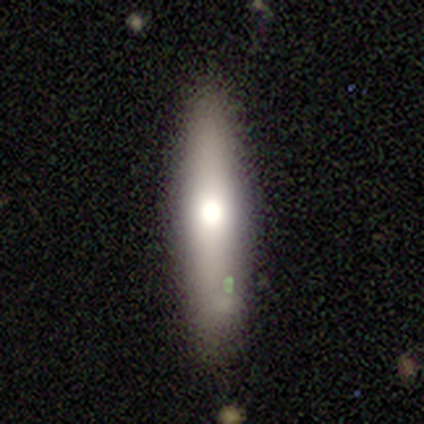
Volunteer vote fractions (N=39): Smooth or featured?
  - smooth: 49% *
  - featured or disk: 44%
  - star or artifact: 8%
How rounded?
  - cigar-shaped: 74% *
  - in between: 26%
  - round: 0%
Merging?
  - none: 81% *
  - minor disturbance: 17%
  - merger: 3%
  - major disturbance: 0%